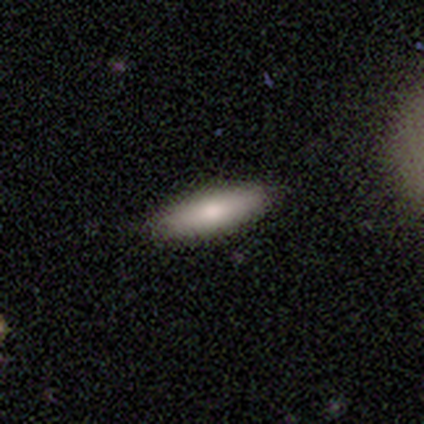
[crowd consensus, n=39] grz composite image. It shows a smooth galaxy with no disk features (74%) that is cigar-shaped (62%). Merging: none (95%).